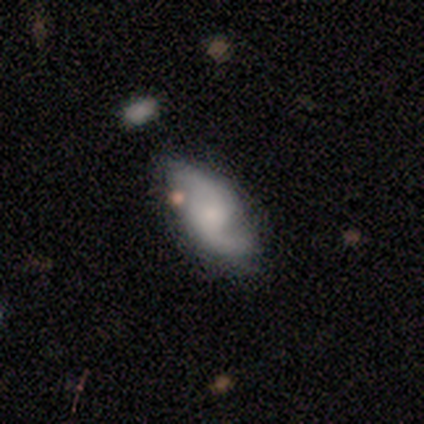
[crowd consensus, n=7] Smooth or featured: featured or disk — 86% (smooth — 14%)
Edge-on disk: no — 100%
Bar: weak — 67% (strong — 17%)
Spiral arms: yes — 100%
Spiral winding: medium — 50% (loose — 33%)
Spiral arm count: 2 — 100%
Bulge size: small — 50% (large — 17%)
Merging: none — 43% (tied with minor disturbance — 43%)